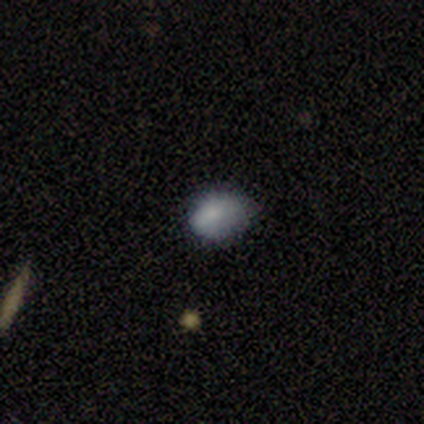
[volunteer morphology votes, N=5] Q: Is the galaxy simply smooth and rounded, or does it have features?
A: smooth — 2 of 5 (40%, tied with featured or disk).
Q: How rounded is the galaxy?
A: round — 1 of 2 (50%, tied with in between).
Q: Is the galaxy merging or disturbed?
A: none — 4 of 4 (100%).